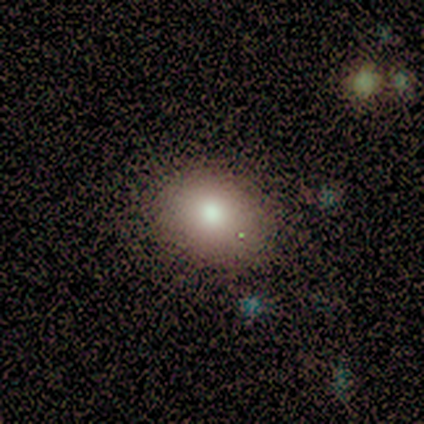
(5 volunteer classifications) Smooth or featured: smooth — 100%
How rounded: in between — 60% (round — 40%)
Merging: none — 80% (minor disturbance — 20%)